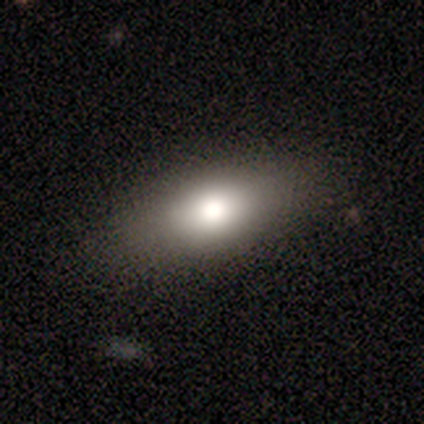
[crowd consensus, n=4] This appears to be a smooth galaxy with no disk features (75%) that is in between round and cigar-shaped (100%). Merging: none (75%).